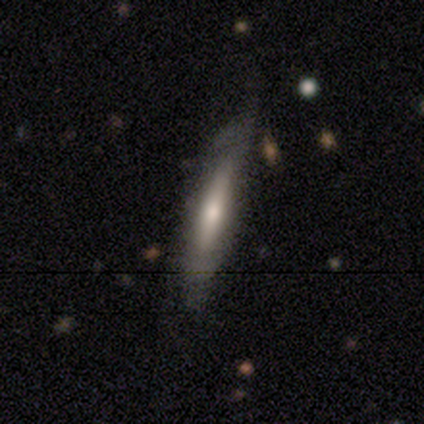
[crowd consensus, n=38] A smooth galaxy with no disk features (50%, tied with featured or disk) that is cigar-shaped (89%). Merging: none (45%).